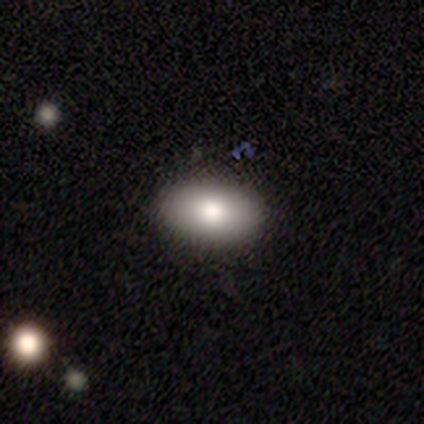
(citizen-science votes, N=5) smooth-or-featured: smooth: 80% | featured or disk: 20% | star or artifact: 0%
  how-rounded: in between: 100% | round: 0% | cigar-shaped: 0%
  merging: none: 100% | minor disturbance: 0% | major disturbance: 0% | merger: 0%